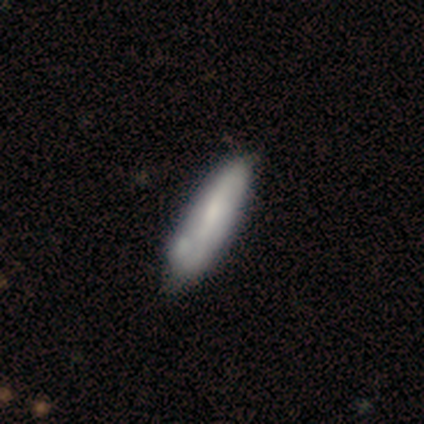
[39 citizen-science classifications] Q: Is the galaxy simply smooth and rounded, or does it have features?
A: smooth — 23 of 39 (59%).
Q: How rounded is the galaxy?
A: in between — 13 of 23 (57%).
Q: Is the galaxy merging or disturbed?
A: none — 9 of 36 (25%).